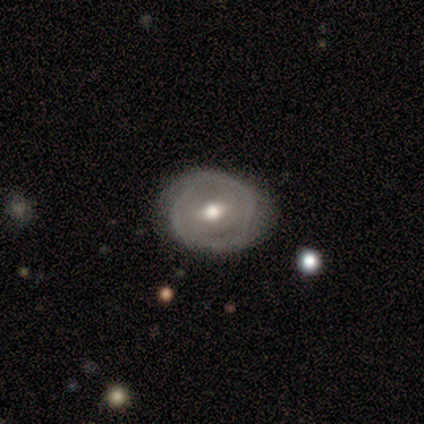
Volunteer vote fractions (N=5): Smooth or featured? smooth (40%, tied with featured or disk)
How rounded? round (100%)
Merging? none (100%)